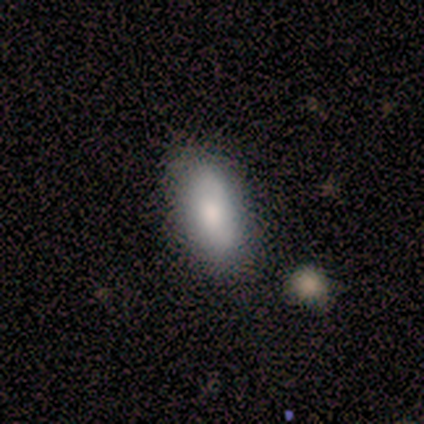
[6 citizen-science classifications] smooth 83%, featured or disk 17%, star or artifact 0%. Down the decision tree: how rounded — in between (100%); merging — none (83%).